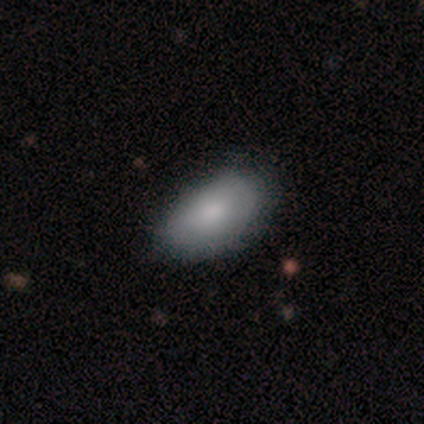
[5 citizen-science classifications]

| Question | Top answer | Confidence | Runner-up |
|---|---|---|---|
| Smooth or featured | smooth | 100% | — |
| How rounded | in between | 100% | — |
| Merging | none | 80% | minor disturbance (20%) |